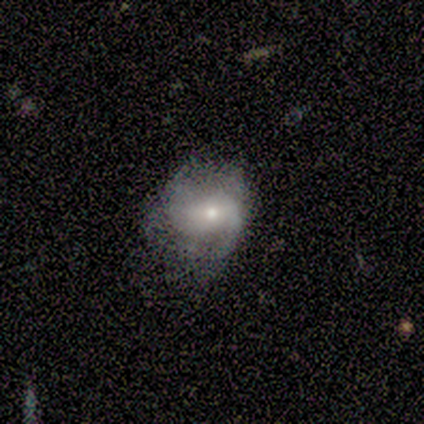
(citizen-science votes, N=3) smooth-or-featured: featured or disk: 67% | star or artifact: 33% | smooth: 0%
  disk-edge-on: no: 100% | yes: 0%
    bar: weak: 50% (tied) | no: 50% (tied) | strong: 0%
    has-spiral-arms: yes: 100% | no: 0%
      spiral-winding: tight: 50% (tied) | loose: 50% (tied) | medium: 0%
      spiral-arm-count: 2: 100% | 1: 0% | 3: 0% | 4: 0% | more than 4: 0% | can't tell: 0%
    bulge-size: small: 100% | dominant: 0% | large: 0% | moderate: 0% | none: 0%
  merging: none: 100% | minor disturbance: 0% | major disturbance: 0% | merger: 0%